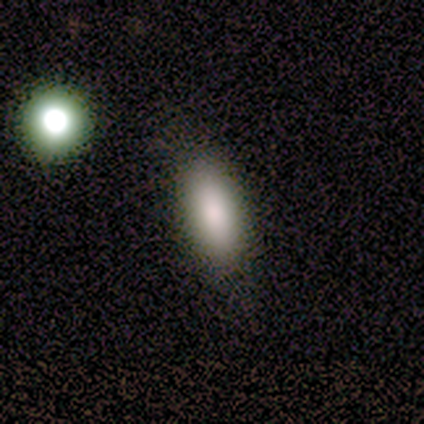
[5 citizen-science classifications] smooth-or-featured: smooth: 80% | star or artifact: 20% | featured or disk: 0%
  how-rounded: in between: 75% | cigar-shaped: 25% | round: 0%
  merging: none: 100% | minor disturbance: 0% | major disturbance: 0% | merger: 0%